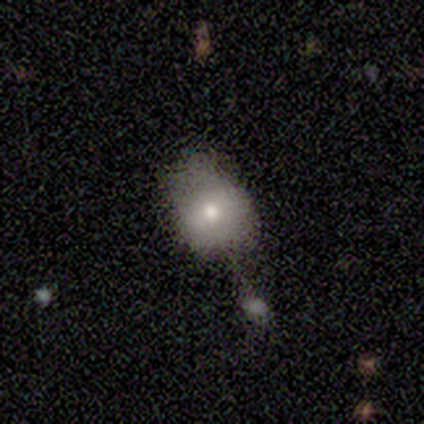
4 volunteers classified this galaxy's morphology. This is likely a smooth galaxy (75%). How rounded: likely in between (67%). Merging: possibly none (50%, tied with major disturbance).